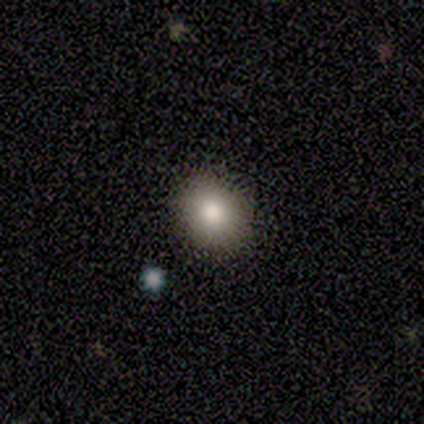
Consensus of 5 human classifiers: smooth_or_featured: smooth (p=1.00)
how_rounded: round (p=1.00)
merging: none (p=1.00)